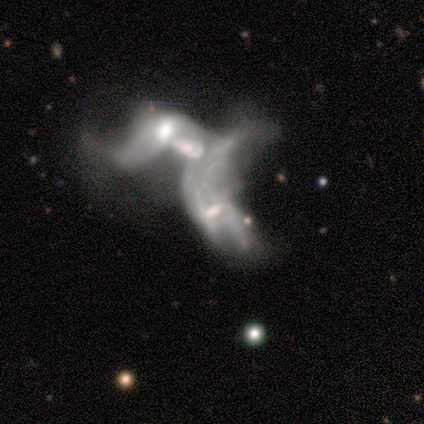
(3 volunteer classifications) smooth-or-featured: featured or disk: 67% | smooth: 33% | star or artifact: 0%
  disk-edge-on: no: 100% | yes: 0%
    bar: strong: 50% (tied) | no: 50% (tied) | weak: 0%
    has-spiral-arms: no: 100% | yes: 0%
    bulge-size: small: 50% (tied) | none: 50% (tied) | dominant: 0% | large: 0% | moderate: 0%
  merging: merger: 67% | major disturbance: 33% | none: 0% | minor disturbance: 0%